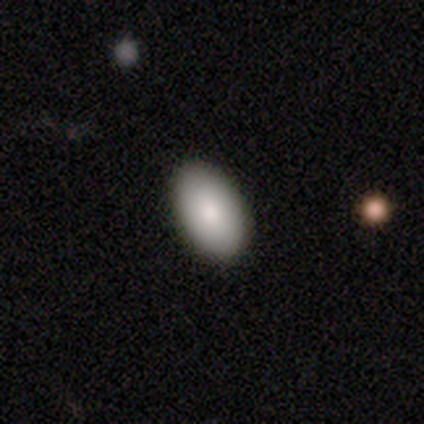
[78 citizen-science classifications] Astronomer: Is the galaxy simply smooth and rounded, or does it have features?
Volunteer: smooth — 85%.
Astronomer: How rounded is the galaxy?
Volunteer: in between — 95%.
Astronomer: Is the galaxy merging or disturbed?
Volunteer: none — 92%.